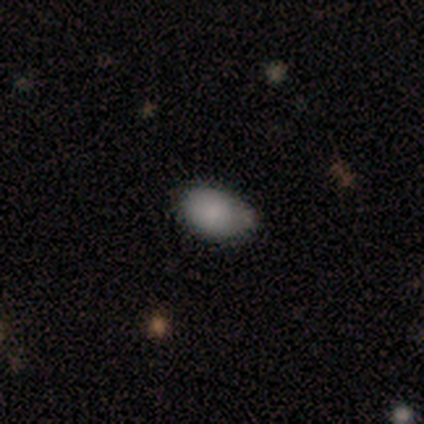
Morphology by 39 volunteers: Smooth or featured: smooth — 77% (star or artifact — 13%)
How rounded: in between — 97% (cigar-shaped — 3%)
Merging: none — 53% (minor disturbance — 38%)